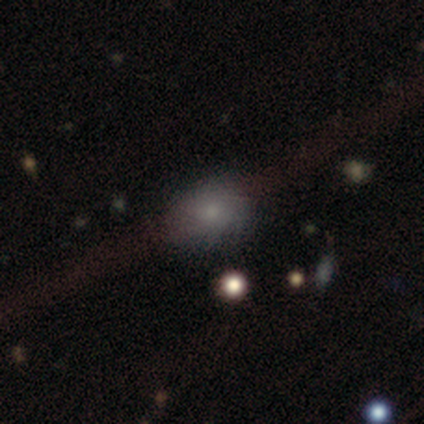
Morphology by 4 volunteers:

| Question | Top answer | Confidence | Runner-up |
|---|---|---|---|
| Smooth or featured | smooth | 50% | tied: featured or disk (50%) |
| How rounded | in between | 100% | — |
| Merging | none | 100% | — |